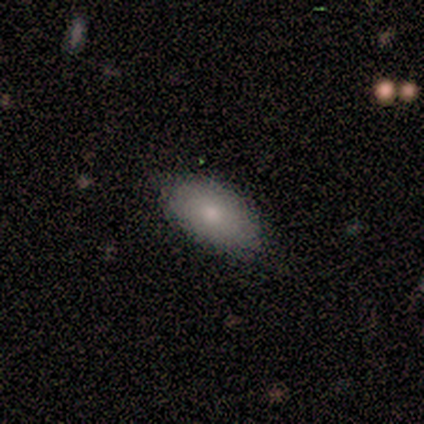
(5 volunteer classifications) A smooth galaxy with no disk features (80%) that is in between round and cigar-shaped (100%).

Vote fractions:
- Smooth or featured? smooth: 80% / featured or disk: 20% / star or artifact: 0%
- How rounded? in between: 100% / round: 0% / cigar-shaped: 0%
- Merging? none: 100% / minor disturbance: 0% / major disturbance: 0% / merger: 0%